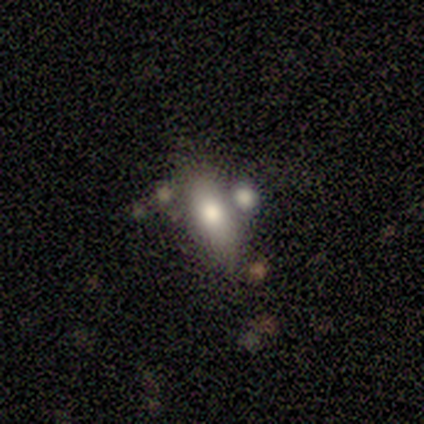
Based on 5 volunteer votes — smooth_or_featured: featured or disk (p=0.60) [alt: smooth p=0.40]
disk_edge_on: no (p=0.67) [alt: yes p=0.33]
bar: no (p=1.00)
has_spiral_arms: no (p=1.00)
bulge_size: moderate (p=1.00)
merging: none (p=0.80) [alt: merger p=0.20]